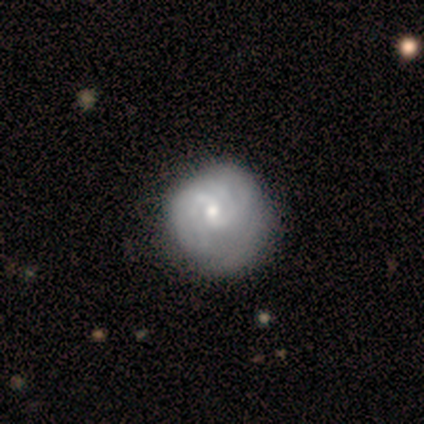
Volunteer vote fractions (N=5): A featured or disk galaxy (100%) with a weak bar (60%), 2 (50%, tied with 3) tight (50%, tied with medium) spiral arms (80%) and a moderate central bulge (80%). Merging: none (40%, tied with major disturbance).